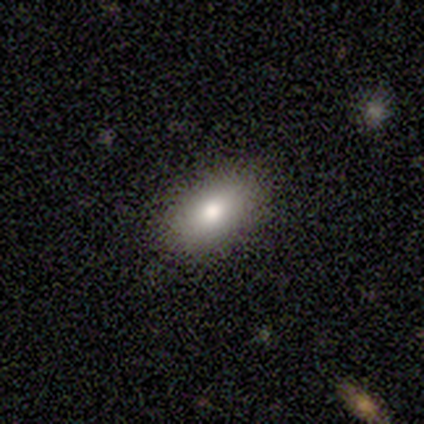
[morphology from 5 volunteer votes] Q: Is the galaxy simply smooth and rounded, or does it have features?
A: smooth — 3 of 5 (60%).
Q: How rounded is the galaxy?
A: in between — 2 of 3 (67%).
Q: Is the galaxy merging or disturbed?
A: none — 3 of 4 (75%).